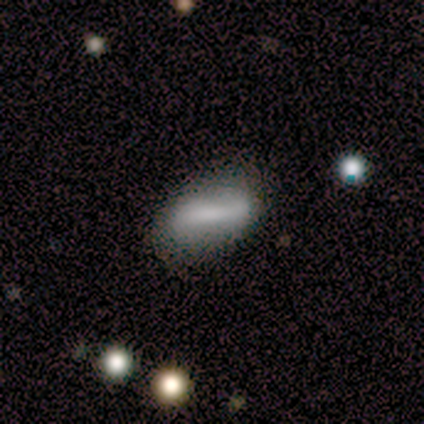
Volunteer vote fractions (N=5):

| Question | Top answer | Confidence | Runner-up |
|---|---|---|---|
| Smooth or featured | featured or disk | 60% | smooth (40%) |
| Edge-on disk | no | 100% | — |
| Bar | strong | 100% | — |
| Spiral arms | yes | 67% | no (33%) |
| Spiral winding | medium | 50% | tied: loose (50%) |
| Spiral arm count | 2 | 100% | — |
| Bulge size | small | 67% | moderate (33%) |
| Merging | none | 80% | minor disturbance (20%) |